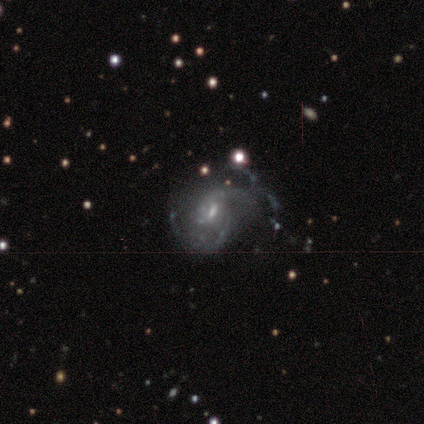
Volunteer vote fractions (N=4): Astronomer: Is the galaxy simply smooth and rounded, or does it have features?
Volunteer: featured or disk — 100%.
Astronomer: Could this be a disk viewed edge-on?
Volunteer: no — 100%.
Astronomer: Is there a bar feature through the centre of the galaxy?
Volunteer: weak — 100%.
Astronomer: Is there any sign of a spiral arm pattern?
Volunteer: yes — 75%.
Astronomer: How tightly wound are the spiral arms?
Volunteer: tight — 33%, tied with medium and loose at 33%.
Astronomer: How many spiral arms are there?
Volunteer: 1 — 33%, tied with 2 and 3 at 33%.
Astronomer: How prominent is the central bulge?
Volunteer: small — 75%.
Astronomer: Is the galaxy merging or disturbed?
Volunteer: none — 75%.